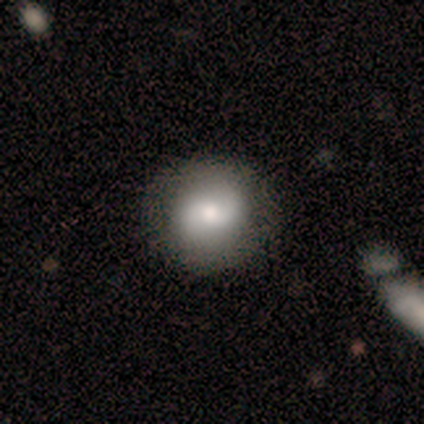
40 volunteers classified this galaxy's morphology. This appears to be a smooth galaxy with no disk features (60%) that is round (88%). Merging: none (75%).